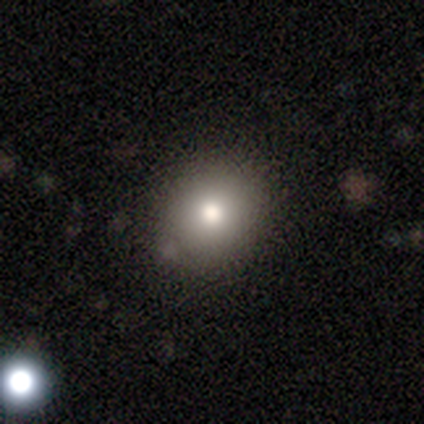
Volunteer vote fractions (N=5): This appears to be a smooth galaxy with no disk features (60%) that is round (67%). Merging: minor disturbance (50%).